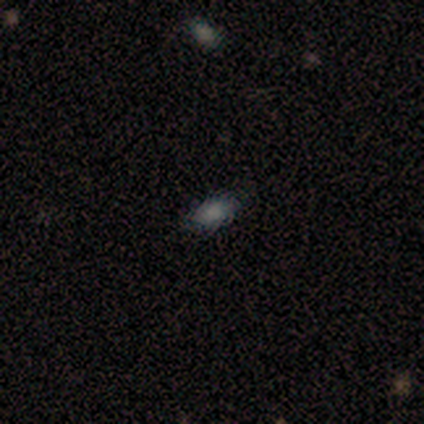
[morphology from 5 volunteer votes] Smooth or featured? smooth (100%)
How rounded? in between (100%)
Merging? none (100%)